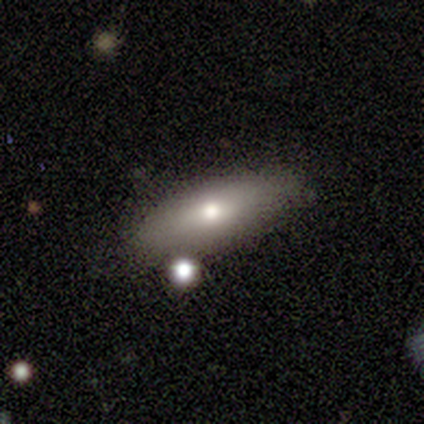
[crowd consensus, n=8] Smooth or featured? 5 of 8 (62%) said smooth. How rounded? 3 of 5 (60%) said in between. Merging? 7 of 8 (88%) said none.